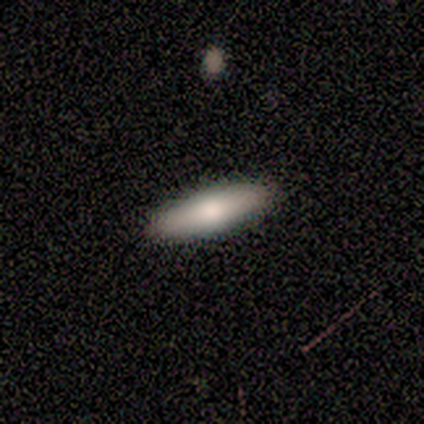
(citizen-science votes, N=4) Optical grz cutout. It shows a smooth galaxy with no disk features (100%) that is in between round and cigar-shaped (100%). Merging: none (75%).